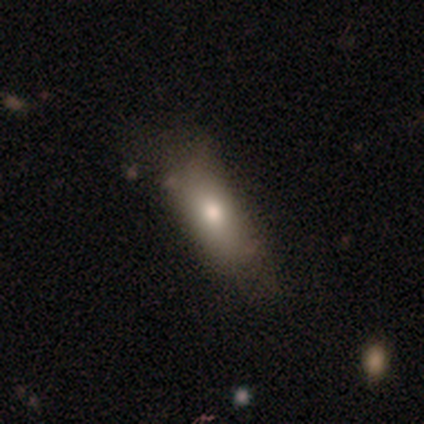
Smooth or featured?
  - smooth: 76% *
  - star or artifact: 18%
  - featured or disk: 5%
How rounded?
  - in between: 79% *
  - cigar-shaped: 21%
  - round: 0%
Merging?
  - none: 45% *
  - minor disturbance: 32%
  - major disturbance: 23%
  - merger: 0%